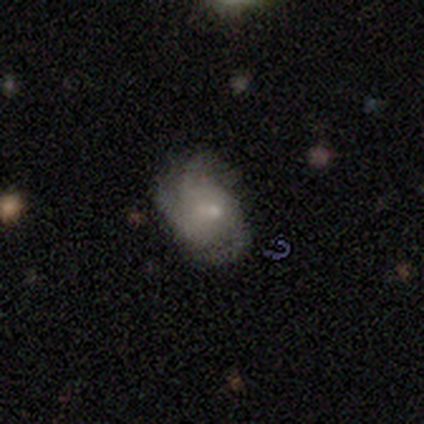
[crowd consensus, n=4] Smooth or featured?
  - smooth: 50% *
  - featured or disk: 25%
  - star or artifact: 25%
How rounded?
  - round: 50% * (tied)
  - in between: 50% * (tied)
  - cigar-shaped: 0%
Merging?
  - none: 33% * (tied)
  - minor disturbance: 33% * (tied)
  - major disturbance: 33% * (tied)
  - merger: 0%